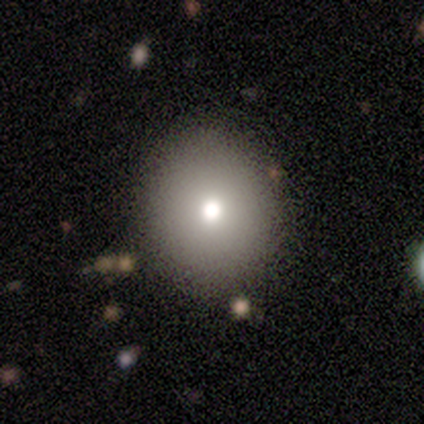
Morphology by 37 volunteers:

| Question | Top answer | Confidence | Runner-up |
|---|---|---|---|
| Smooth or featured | smooth | 84% | featured or disk (11%) |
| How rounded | round | 87% | in between (13%) |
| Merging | none | 89% | minor disturbance (6%) |